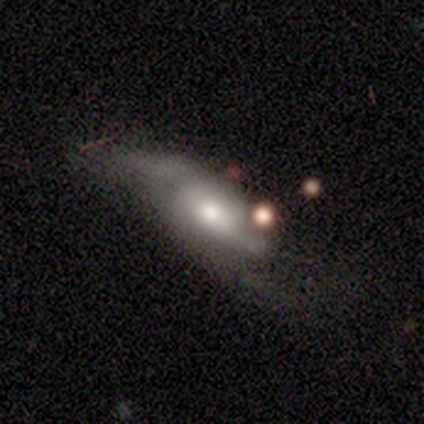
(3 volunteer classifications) smooth-or-featured: featured or disk: 100% | smooth: 0% | star or artifact: 0%
  disk-edge-on: no: 100% | yes: 0%
    bar: no: 100% | strong: 0% | weak: 0%
    has-spiral-arms: yes: 67% | no: 33%
      spiral-winding: loose: 100% | tight: 0% | medium: 0%
      spiral-arm-count: 2: 50% (tied) | can't tell: 50% (tied) | 1: 0% | 3: 0% | 4: 0% | more than 4: 0%
    bulge-size: moderate: 100% | dominant: 0% | large: 0% | small: 0% | none: 0%
  merging: major disturbance: 100% | none: 0% | minor disturbance: 0% | merger: 0%